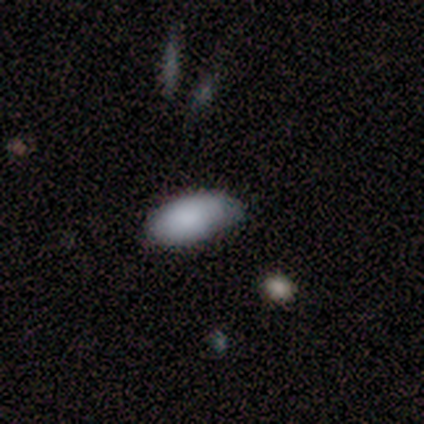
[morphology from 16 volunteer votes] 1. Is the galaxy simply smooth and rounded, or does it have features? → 100% smooth, 0% featured or disk, 0% star or artifact.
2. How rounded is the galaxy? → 100% in between, 0% round, 0% cigar-shaped.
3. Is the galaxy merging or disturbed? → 50% none (tied), 50% minor disturbance (tied), 0% major disturbance, 0% merger.